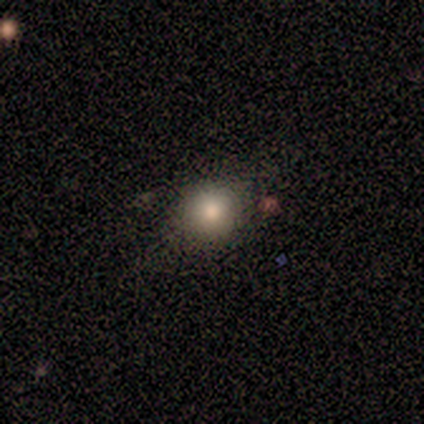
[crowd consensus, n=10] smooth-or-featured: smooth: 60% | featured or disk: 20% | star or artifact: 20%
  how-rounded: round: 67% | in between: 33% | cigar-shaped: 0%
  merging: none: 75% | minor disturbance: 25% | major disturbance: 0% | merger: 0%